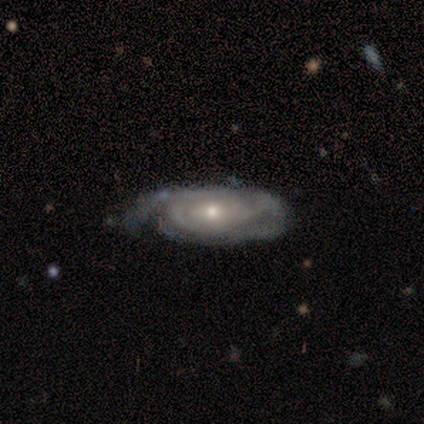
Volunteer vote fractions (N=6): Smooth or featured? 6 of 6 (100%) said featured or disk. Edge-on disk? 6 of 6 (100%) said no. Bar? 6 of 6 (100%) said weak. Spiral arms? 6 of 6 (100%) said yes. Spiral winding? 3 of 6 (50%) said medium. Spiral arm count? 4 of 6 (67%) said 2. Bulge size? 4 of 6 (67%) said small. Merging? 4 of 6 (67%) said none.